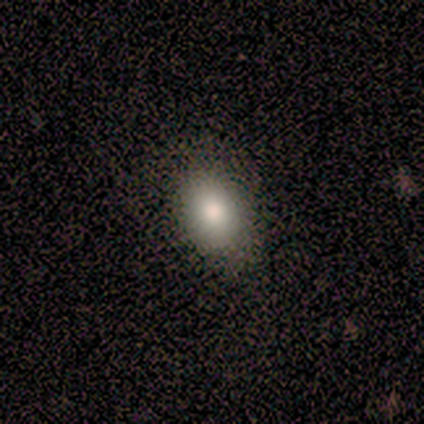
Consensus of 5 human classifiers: A smooth galaxy with no disk features (80%) that is in between round and cigar-shaped (100%).

Vote fractions:
- Smooth or featured? smooth: 80% / featured or disk: 20% / star or artifact: 0%
- How rounded? in between: 100% / round: 0% / cigar-shaped: 0%
- Merging? none: 80% / minor disturbance: 20% / major disturbance: 0% / merger: 0%